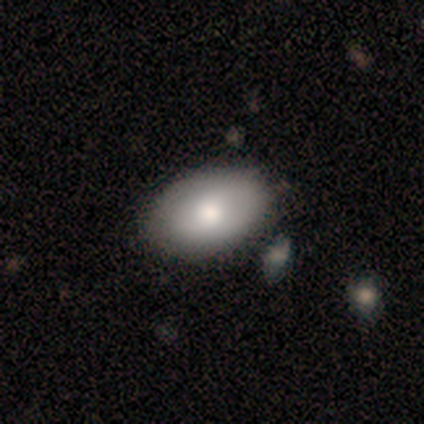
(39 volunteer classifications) Smooth or featured? 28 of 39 (72%) said smooth. How rounded? 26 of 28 (93%) said in between. Merging? 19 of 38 (50%) said none.